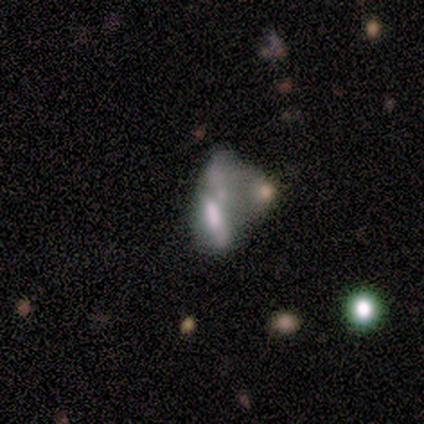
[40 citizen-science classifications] A featured or disk galaxy (52%) with no bar (70%), no spiral arms (95%) and no central bulge (40%). Merging: merger (67%).